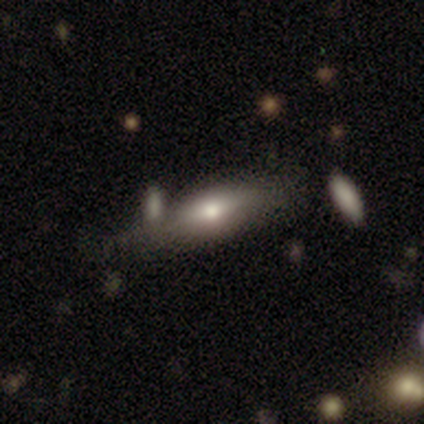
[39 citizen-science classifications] A smooth galaxy with no disk features (64%) that is in between round and cigar-shaped (64%).

Vote fractions:
- Smooth or featured? smooth: 64% / featured or disk: 31% / star or artifact: 5%
- How rounded? in between: 64% / cigar-shaped: 36% / round: 0%
- Merging? none: 35% / minor disturbance: 19% / merger: 16% / major disturbance: 3%